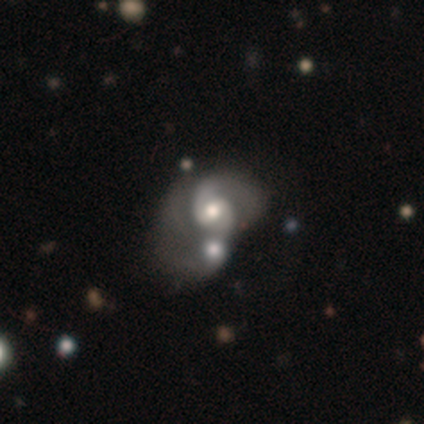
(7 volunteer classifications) A featured or disk galaxy (86%) with a weak bar (50%, tied with no), 2 (67%) medium (83%) spiral arms (100%) and a moderate central bulge (83%). Merging: merger (100%).